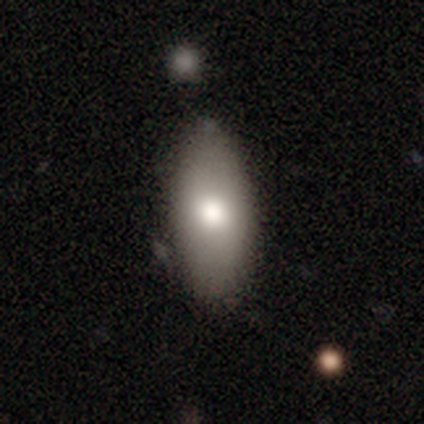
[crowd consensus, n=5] Morphology: type=smooth (100%); roundness=in between (80%); merging=none (100%).